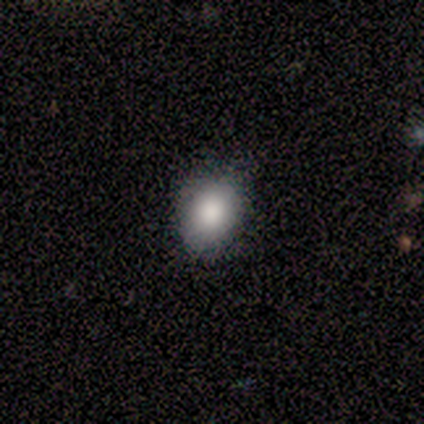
A smooth galaxy with no disk features (80%) that is in between round and cigar-shaped (100%). Merging: none (80%).